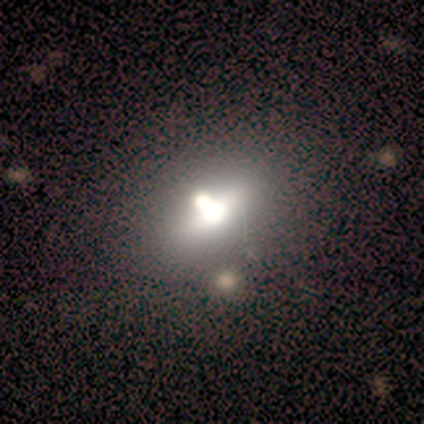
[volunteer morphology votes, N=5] smooth-or-featured: smooth: 80% | featured or disk: 20% | star or artifact: 0%
  how-rounded: in between: 75% | round: 25% | cigar-shaped: 0%
  merging: none: 40% | minor disturbance: 20% | major disturbance: 20% | merger: 20%